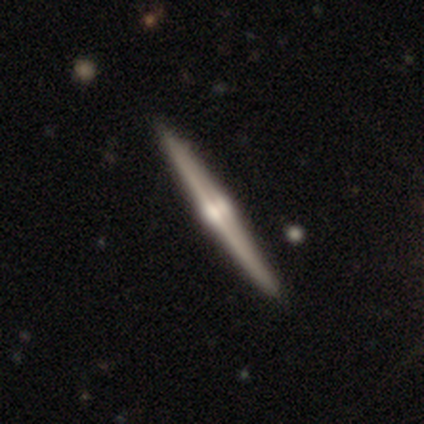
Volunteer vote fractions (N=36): Overall: featured or disk (81%). Edge-on disk: yes (100%). Edge-on bulge: rounded (93%). Merging: none (89%).